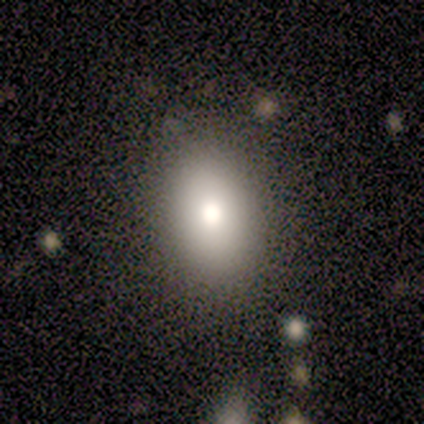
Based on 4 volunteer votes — Overall: smooth (100%). How rounded: in between (75%). Merging: none (100%).